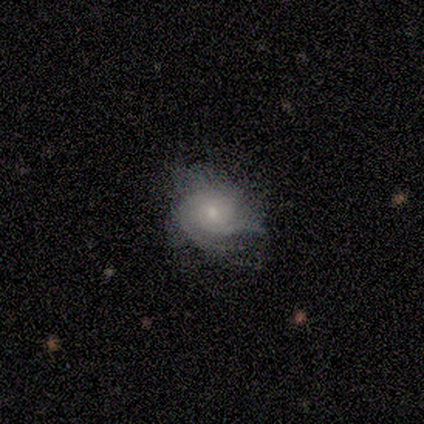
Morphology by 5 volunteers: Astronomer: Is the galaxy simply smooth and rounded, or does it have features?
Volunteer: featured or disk — 80%.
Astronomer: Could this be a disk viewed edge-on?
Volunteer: no — 100%.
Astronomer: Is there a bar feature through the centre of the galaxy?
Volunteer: weak — 50%, tied with no at 50%.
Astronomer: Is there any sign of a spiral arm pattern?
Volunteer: yes — 100%.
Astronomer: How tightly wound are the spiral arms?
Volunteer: tight — 75%.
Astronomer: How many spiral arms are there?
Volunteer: can't tell — 75%.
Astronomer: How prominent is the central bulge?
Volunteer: moderate — 75%.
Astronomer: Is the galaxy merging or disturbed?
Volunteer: none — 80%.